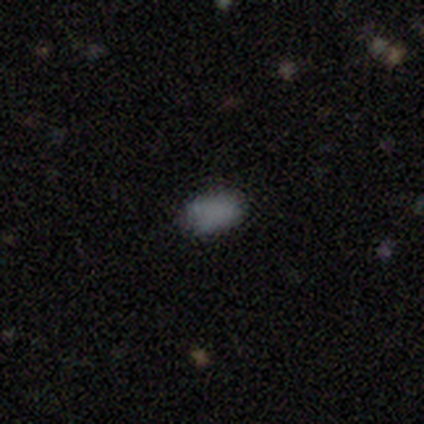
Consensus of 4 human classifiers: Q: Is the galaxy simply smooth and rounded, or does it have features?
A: smooth — 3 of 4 (75%).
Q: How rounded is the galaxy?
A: in between — 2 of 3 (67%).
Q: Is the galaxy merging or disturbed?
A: none — 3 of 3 (100%).